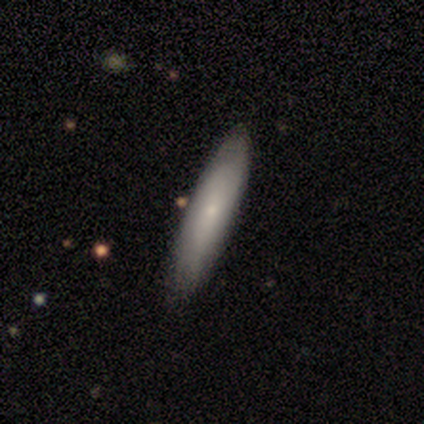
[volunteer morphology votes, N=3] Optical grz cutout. It shows a smooth galaxy with no disk features (33%, tied with featured or disk and star or artifact) that is in between round and cigar-shaped (100%). Merging: none (100%).